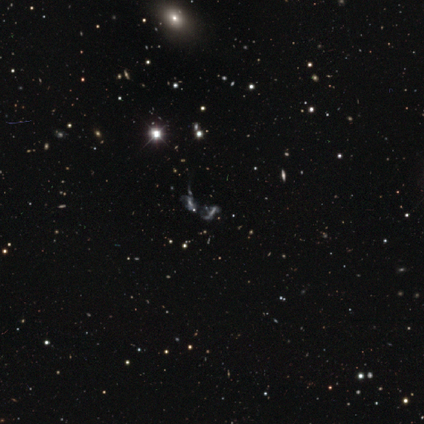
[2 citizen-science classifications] Smooth or featured: smooth — 50% (tied with featured or disk — 50%)
How rounded: in between — 100%
Merging: none — 50% (tied with minor disturbance — 50%)